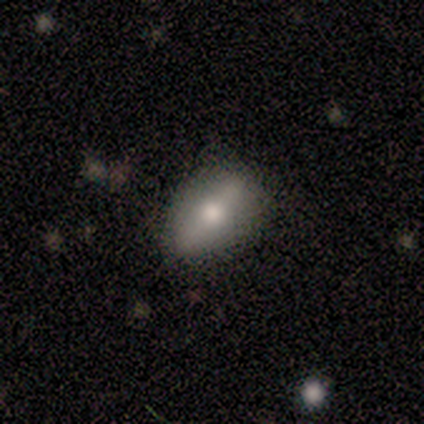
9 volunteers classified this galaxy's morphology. This is possibly a smooth galaxy (56%). How rounded: likely in between (60%). Merging: clearly none (86%).